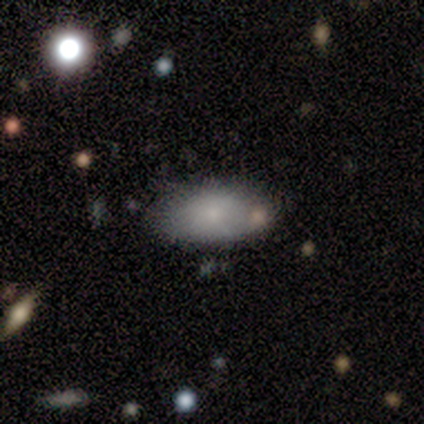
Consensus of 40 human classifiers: Smooth or featured?
  - smooth: 80% *
  - featured or disk: 12%
  - star or artifact: 8%
How rounded?
  - in between: 97% *
  - cigar-shaped: 3%
  - round: 0%
Merging?
  - none: 57% *
  - minor disturbance: 32%
  - merger: 8%
  - major disturbance: 3%